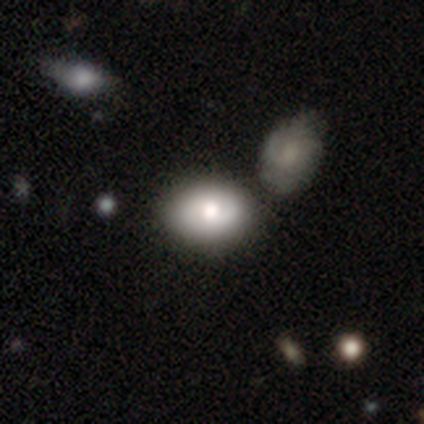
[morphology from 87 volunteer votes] This is possibly a smooth galaxy (54%). How rounded: clearly in between (81%). Merging: likely none (68%).